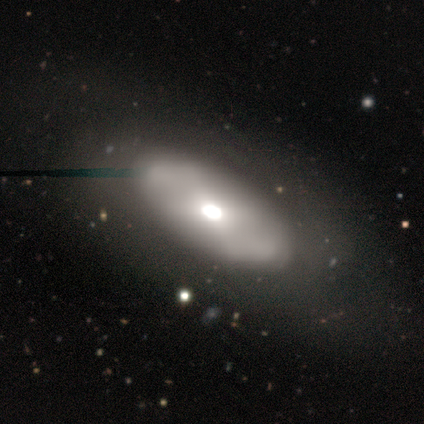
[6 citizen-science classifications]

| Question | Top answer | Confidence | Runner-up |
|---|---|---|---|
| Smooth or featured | featured or disk | 50% | star or artifact (33%) |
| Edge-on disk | no | 100% | — |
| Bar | no | 100% | — |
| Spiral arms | no | 67% | yes (33%) |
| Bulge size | large | 67% | moderate (33%) |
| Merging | none | 100% | — |